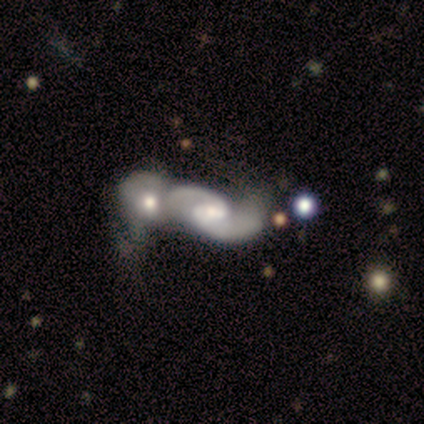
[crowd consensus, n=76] Volunteers were most divided on "spiral winding": loose: 50%, medium: 45%, tight: 5%. Remaining: edge-on disk — no (99%); spiral arms — yes (94%); spiral arm count — 2 (94%); smooth or featured — featured or disk (91%); merging — merger (74%); bulge size — moderate (51%); bar — weak (49%).